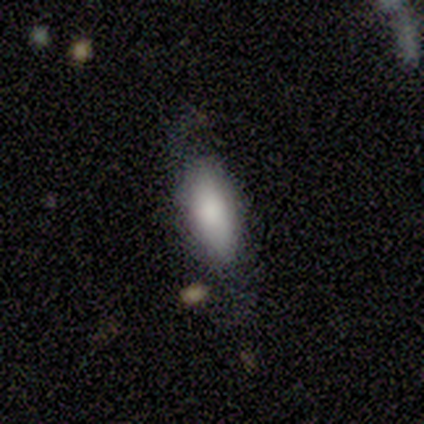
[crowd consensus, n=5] Smooth or featured? smooth (80%)
How rounded? in between (100%)
Merging? none (40%, tied with minor disturbance)